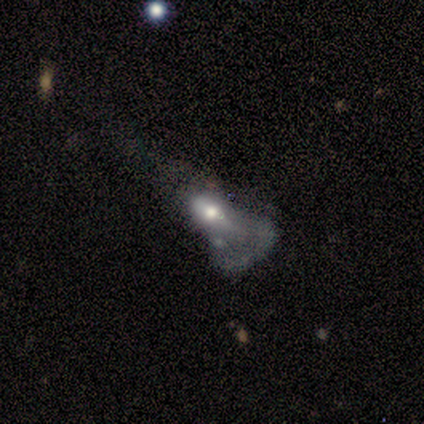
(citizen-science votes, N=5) This is clearly a featured or disk galaxy (80%). It is likely not viewed edge-on (75%). Bar: likely no (67%). Spiral arm pattern: clearly no (100%). Central bulge: likely moderate (67%). Merging: clearly major disturbance (80%).